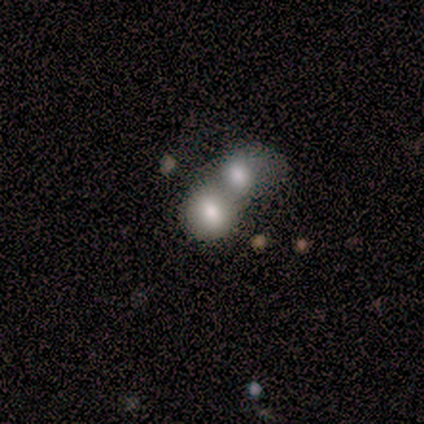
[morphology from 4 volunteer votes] Smooth or featured? smooth (75%)
How rounded? in between (100%)
Merging? merger (75%)